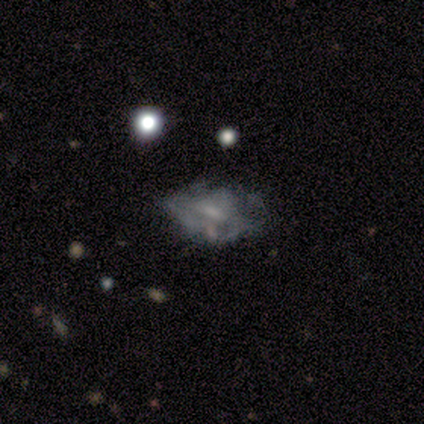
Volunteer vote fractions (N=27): Morphology: type=featured or disk (48%); edge-on=no (100%); bar=no (62%); spiral arms=no (85%); bulge=none (62%); merging=none (62%).